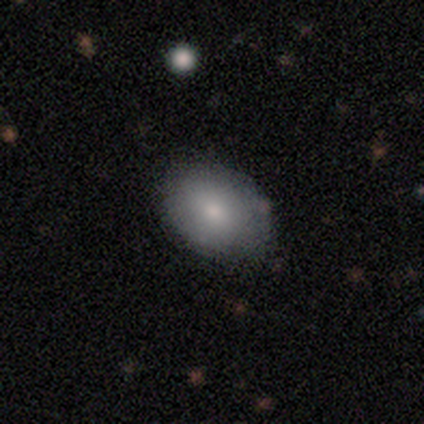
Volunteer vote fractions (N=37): Volunteers were most divided on "how rounded": in between: 67%, round: 30%, cigar-shaped: 3%. More confident: merging — none (94%); smooth or featured — smooth (81%).